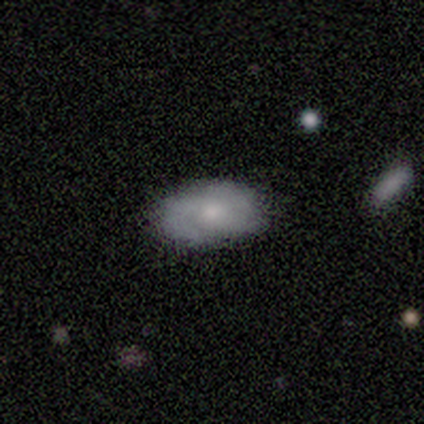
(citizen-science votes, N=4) A smooth galaxy with no disk features (75%) that is in between round and cigar-shaped (100%).

Vote fractions:
- Smooth or featured? smooth: 75% / featured or disk: 25% / star or artifact: 0%
- How rounded? in between: 100% / round: 0% / cigar-shaped: 0%
- Merging? none: 75% / merger: 25% / minor disturbance: 0% / major disturbance: 0%